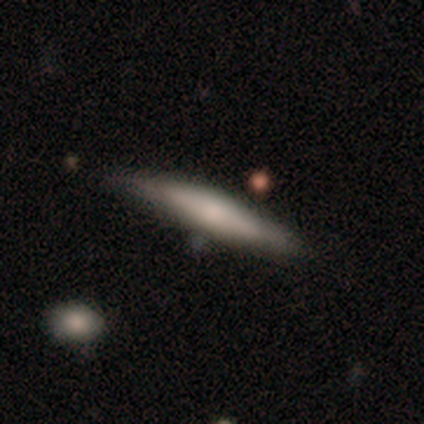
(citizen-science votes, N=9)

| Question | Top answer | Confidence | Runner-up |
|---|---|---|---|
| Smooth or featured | smooth | 56% | featured or disk (44%) |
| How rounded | cigar-shaped | 80% | in between (20%) |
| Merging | none | 56% | minor disturbance (44%) |